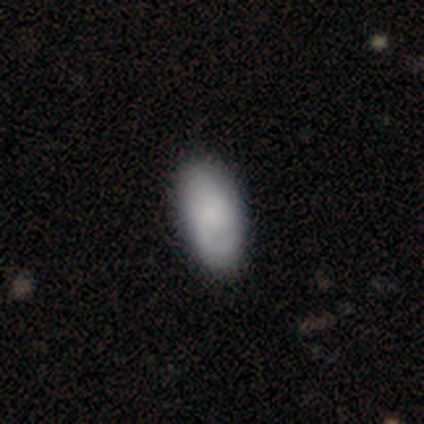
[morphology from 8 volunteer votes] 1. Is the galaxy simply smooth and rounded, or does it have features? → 75% smooth, 12% featured or disk, 12% star or artifact.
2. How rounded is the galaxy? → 100% in between, 0% round, 0% cigar-shaped.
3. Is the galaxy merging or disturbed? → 100% none, 0% minor disturbance, 0% major disturbance, 0% merger.